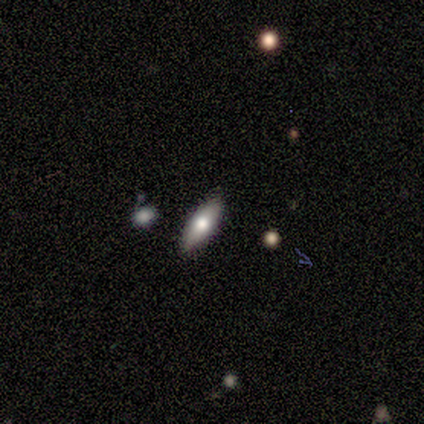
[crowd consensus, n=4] Smooth or featured?
  - featured or disk: 75% *
  - smooth: 25%
  - star or artifact: 0%
Edge-on disk?
  - yes: 100% *
  - no: 0%
Edge-on bulge?
  - rounded: 67% *
  - none: 33%
  - boxy: 0%
Merging?
  - none: 100% *
  - minor disturbance: 0%
  - major disturbance: 0%
  - merger: 0%